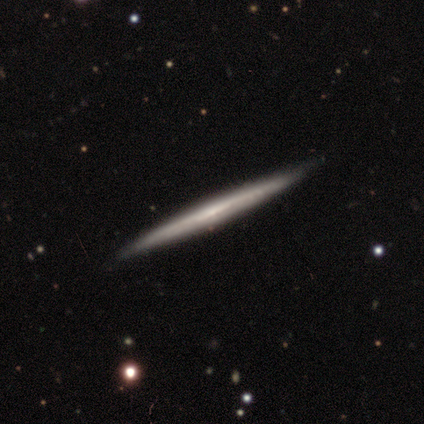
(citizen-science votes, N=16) smooth-or-featured: featured or disk: 81% | smooth: 19% | star or artifact: 0%
  disk-edge-on: yes: 92% | no: 8%
    edge-on-bulge: none: 92% | rounded: 8% | boxy: 0%
  merging: none: 44% | merger: 6% | minor disturbance: 0% | major disturbance: 0%